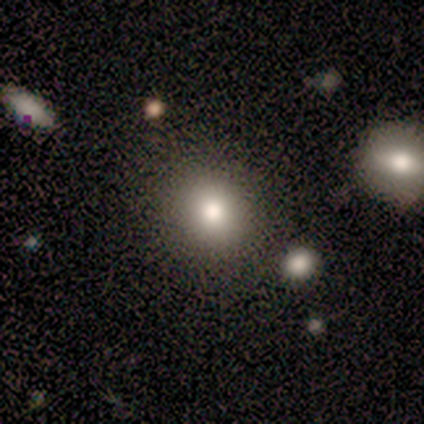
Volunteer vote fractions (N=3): Q: Smooth or featured?
A: smooth (67%); runner-up: featured or disk (33%)
Q: How rounded?
A: round (50%); tied with: in between (50%)
Q: Merging?
A: none (67%); runner-up: minor disturbance (33%)